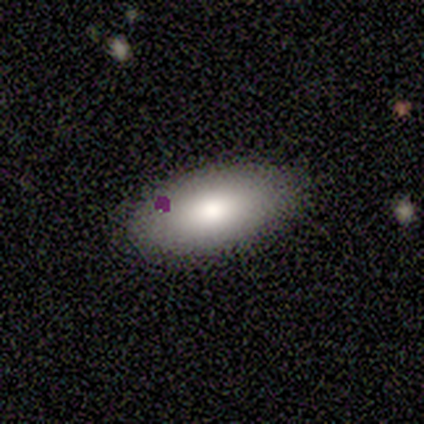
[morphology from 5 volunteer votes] This is clearly a smooth galaxy (100%). How rounded: clearly in between (100%). Merging: clearly none (100%).